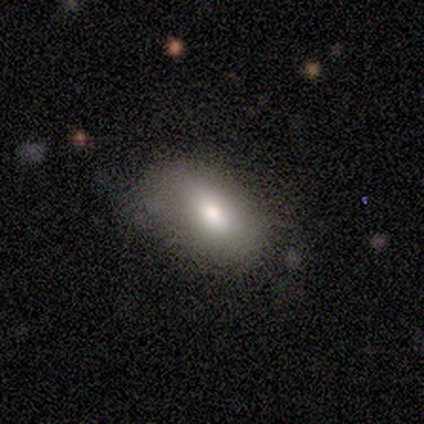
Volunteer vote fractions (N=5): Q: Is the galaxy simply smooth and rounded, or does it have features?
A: smooth — 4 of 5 (80%).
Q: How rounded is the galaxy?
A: in between — 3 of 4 (75%).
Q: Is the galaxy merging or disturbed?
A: none — 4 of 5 (80%).